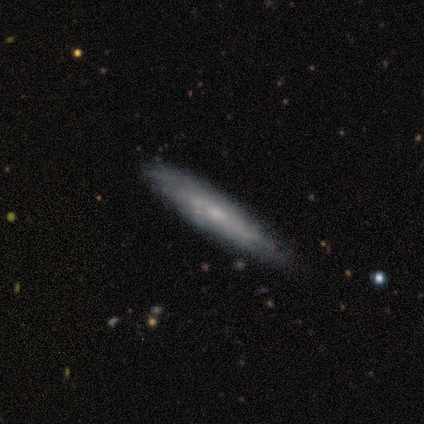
A featured or disk galaxy (60%) viewed edge-on (100%) with a rounded central bulge (67%). Merging: none (50%).